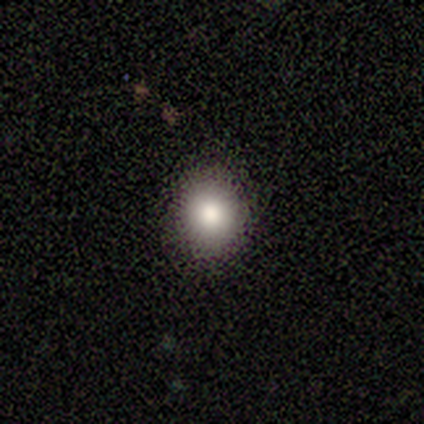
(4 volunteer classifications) Smooth or featured: smooth — 100%
How rounded: round — 100%
Merging: none — 75% (major disturbance — 25%)